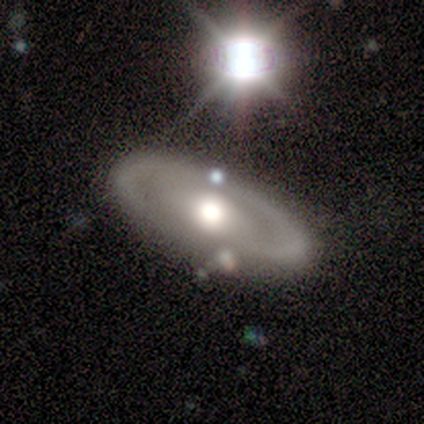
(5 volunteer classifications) Smooth or featured? 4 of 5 (80%) said featured or disk. Edge-on disk? 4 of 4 (100%) said no. Bar? 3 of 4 (75%) said no. Spiral arms? 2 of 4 (50%, tied with no) said yes. Spiral winding? 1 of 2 (50%, tied with loose) said tight. Spiral arm count? 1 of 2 (50%, tied with can't tell) said 2. Bulge size? 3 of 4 (75%) said moderate. Merging? 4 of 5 (80%) said none.